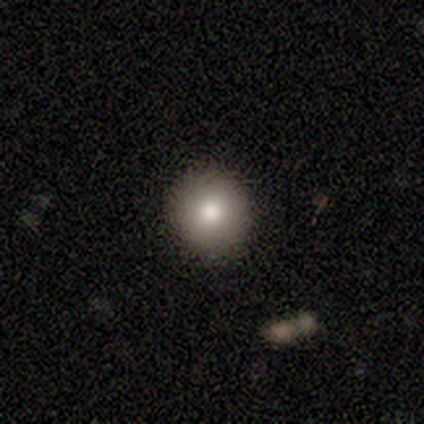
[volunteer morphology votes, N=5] A smooth galaxy with no disk features (80%) that is round (100%). Merging: none (100%).